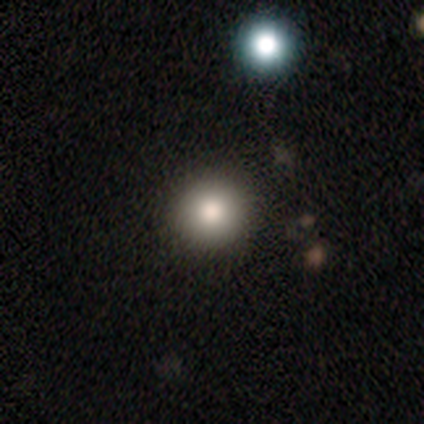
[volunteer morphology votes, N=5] Overall: smooth (80%). How rounded: round (100%). Merging: none (100%).